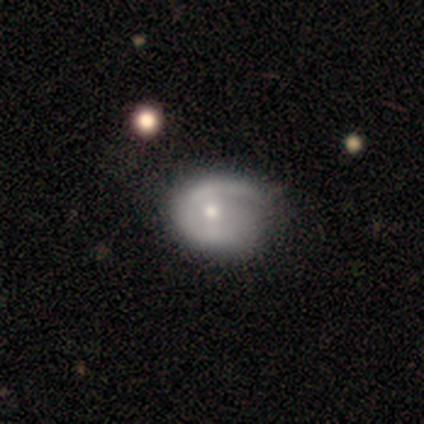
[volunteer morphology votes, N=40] This is likely a featured or disk galaxy (72%). It is clearly not viewed edge-on (100%). Bar: likely no (62%). Spiral arm pattern: likely yes (79%). Spiral arm count: likely 1 (65%). Spiral winding: possibly tight (48%). Central bulge: possibly moderate (52%). Merging: marginally minor disturbance (26%).